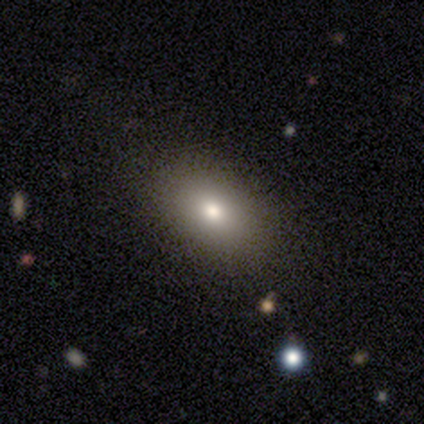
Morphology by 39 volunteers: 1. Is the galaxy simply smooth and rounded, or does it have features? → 74% smooth, 18% featured or disk, 8% star or artifact.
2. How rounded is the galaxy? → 86% in between, 14% round, 0% cigar-shaped.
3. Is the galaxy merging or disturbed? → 86% none, 8% minor disturbance, 6% major disturbance, 0% merger.